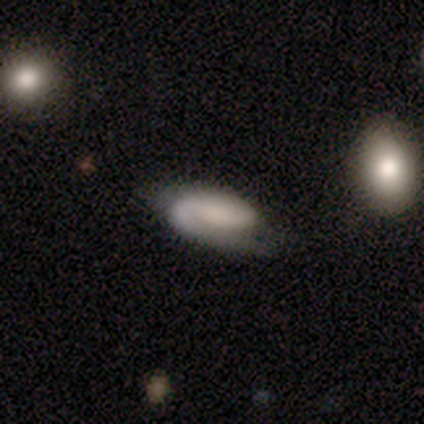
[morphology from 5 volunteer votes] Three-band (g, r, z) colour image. It shows a featured or disk galaxy (80%) with no bar (75%), 1 (75%) tight (50%) spiral arms (100%) and no central bulge (50%). Merging: none (100%).